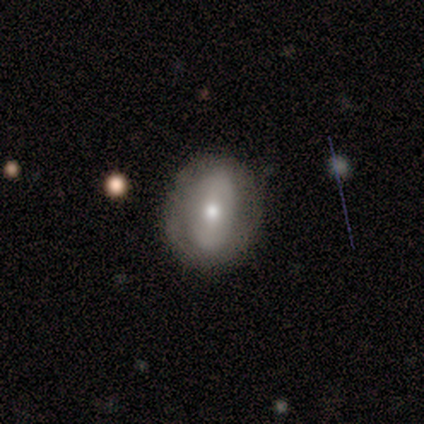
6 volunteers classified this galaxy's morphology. This is clearly a smooth galaxy (100%). How rounded: clearly in between (100%). Merging: likely none (67%).